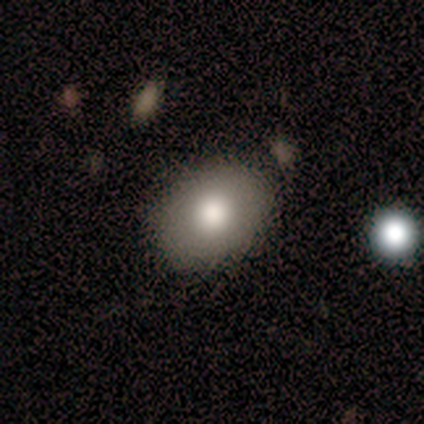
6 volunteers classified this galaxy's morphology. A smooth galaxy with no disk features (100%) that is in between round and cigar-shaped (83%). Merging: none (83%).